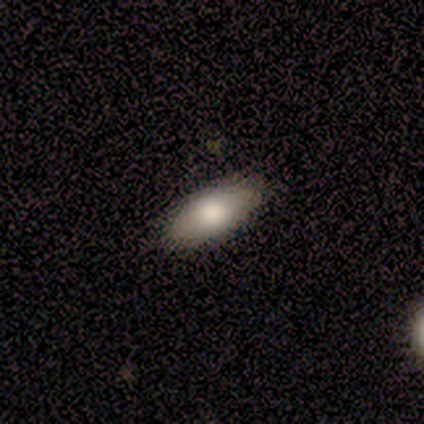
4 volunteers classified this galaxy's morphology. Overall: smooth (100%). How rounded: in between (75%). Merging: none (75%).